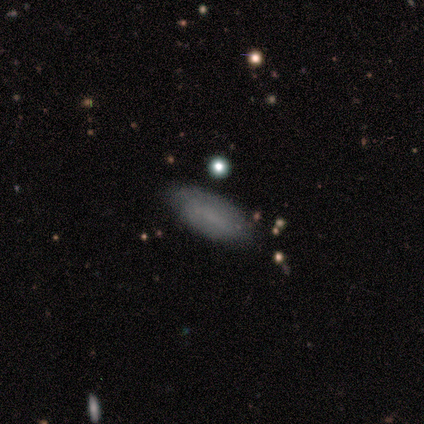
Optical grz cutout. It shows a smooth galaxy with no disk features (80%) that is in between round and cigar-shaped (50%, tied with cigar-shaped). Merging: none (60%).